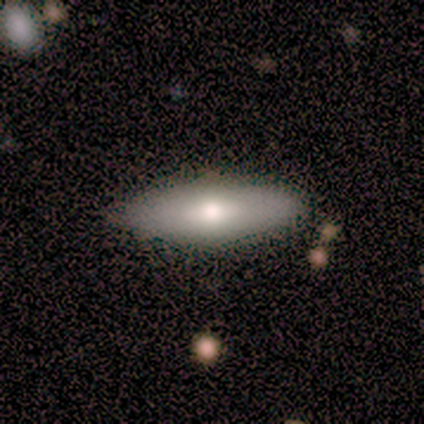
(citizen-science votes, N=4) smooth-or-featured: smooth: 50% (tied) | featured or disk: 50% (tied) | star or artifact: 0%
  how-rounded: in between: 100% | round: 0% | cigar-shaped: 0%
  merging: none: 75% | merger: 25% | minor disturbance: 0% | major disturbance: 0%